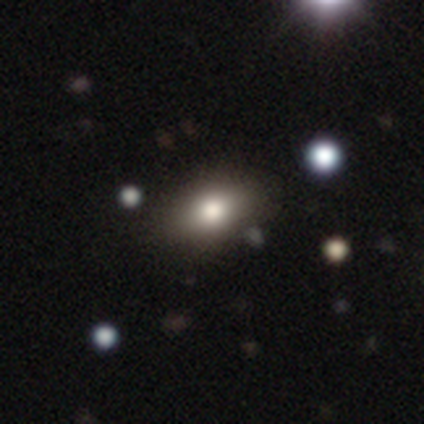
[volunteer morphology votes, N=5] Q: Smooth or featured?
A: featured or disk (40%); tied with: star or artifact (40%)
Q: Edge-on disk?
A: no (100%)
Q: Bar?
A: no (100%)
Q: Spiral arms?
A: no (100%)
Q: Bulge size?
A: large (50%); tied with: moderate (50%)
Q: Merging?
A: none (67%); runner-up: merger (33%)